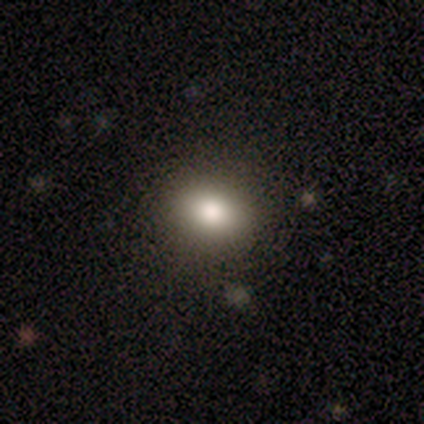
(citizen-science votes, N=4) Morphology: type=smooth (75%); roundness=round (67%); merging=none (100%).